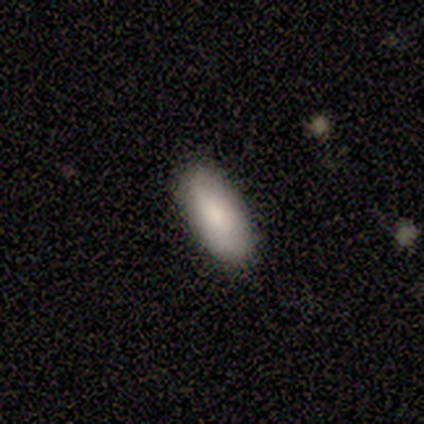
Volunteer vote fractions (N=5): Smooth or featured: smooth — 80% (featured or disk — 20%)
How rounded: in between — 100%
Merging: none — 80% (minor disturbance — 20%)